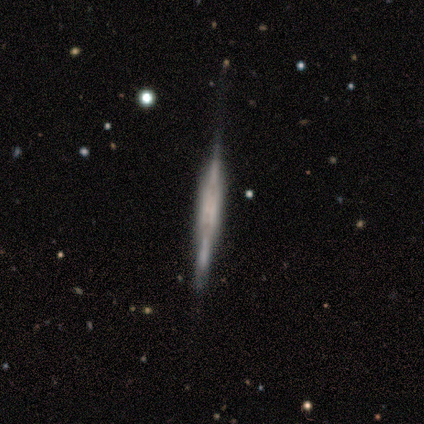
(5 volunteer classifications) Volunteers were most divided on "edge-on bulge" (2-way tie): boxy: 40%, none: 40%, rounded: 20%. More confident: smooth or featured — featured or disk (100%); edge-on disk — yes (100%); merging — minor disturbance (60%).